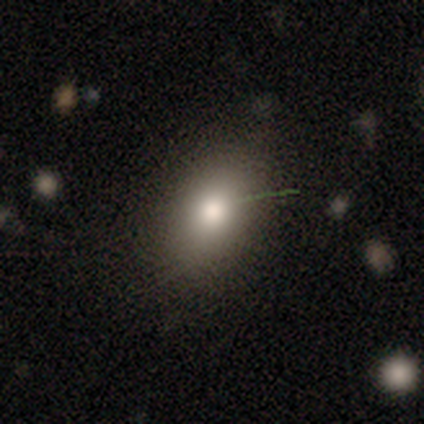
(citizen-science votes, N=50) Volunteers were most divided on "merging": none: 72%, minor disturbance: 24%, major disturbance: 2%, merger: 2%. More confident: smooth or featured — smooth (90%); how rounded — in between (76%).